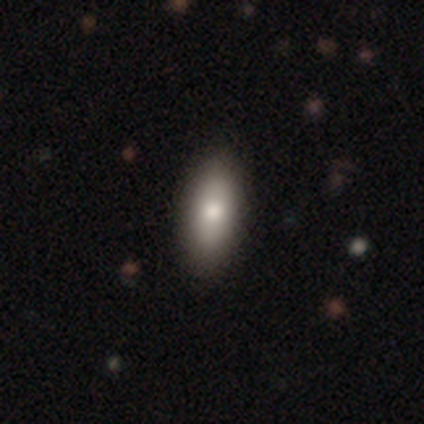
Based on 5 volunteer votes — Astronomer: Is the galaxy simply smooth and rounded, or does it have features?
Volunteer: smooth — 60%.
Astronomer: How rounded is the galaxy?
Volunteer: in between — 100%.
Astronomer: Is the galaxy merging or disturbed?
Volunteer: none — 100%.